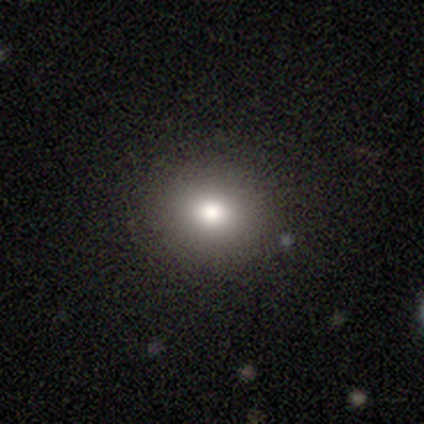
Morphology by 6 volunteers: A smooth galaxy with no disk features (67%) that is round (75%). Merging: none (100%).